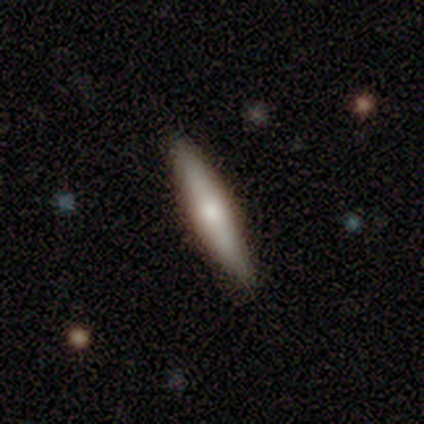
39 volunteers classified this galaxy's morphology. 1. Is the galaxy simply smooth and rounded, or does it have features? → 64% featured or disk, 36% smooth, 0% star or artifact.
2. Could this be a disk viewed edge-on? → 92% yes, 8% no.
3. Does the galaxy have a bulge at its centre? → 91% rounded, 9% none, 0% boxy.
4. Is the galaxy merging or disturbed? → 77% none, 3% minor disturbance, 0% major disturbance, 0% merger.